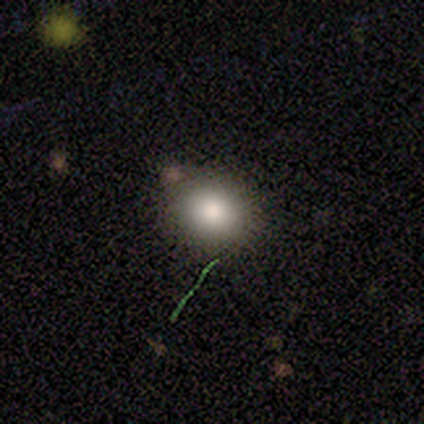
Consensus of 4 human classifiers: This is clearly a smooth galaxy (100%). How rounded: possibly round (50%, tied with in between). Merging: clearly none (100%).